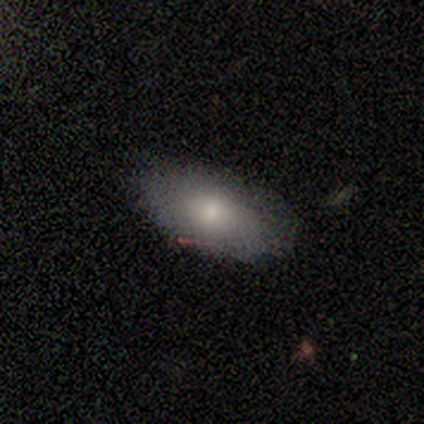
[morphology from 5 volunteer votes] smooth_or_featured: smooth (p=1.00)
how_rounded: in between (p=1.00)
merging: none (p=1.00)